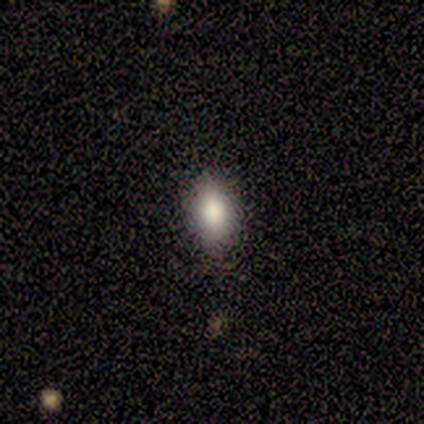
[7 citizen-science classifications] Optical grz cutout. It shows a smooth galaxy with no disk features (100%) that is in between round and cigar-shaped (100%). Merging: none (100%).